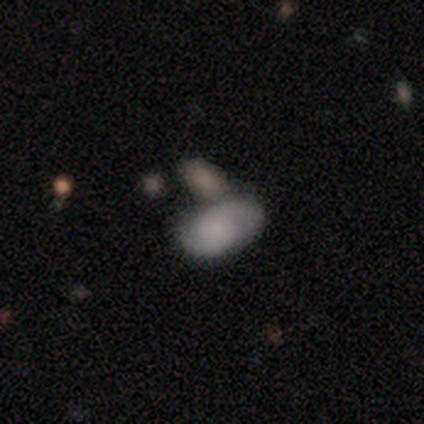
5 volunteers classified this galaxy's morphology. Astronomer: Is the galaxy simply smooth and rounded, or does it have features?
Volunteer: smooth — 40%, tied with featured or disk at 40%.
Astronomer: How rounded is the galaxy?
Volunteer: in between — 100%.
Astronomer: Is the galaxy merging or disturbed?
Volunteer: merger — 50%.